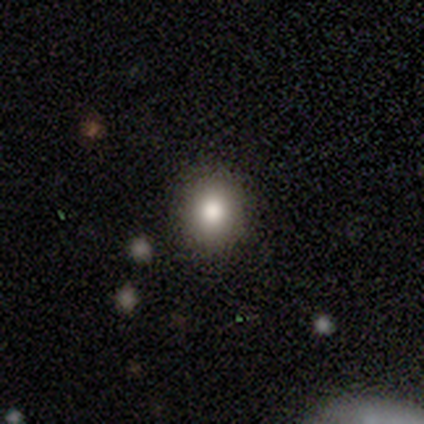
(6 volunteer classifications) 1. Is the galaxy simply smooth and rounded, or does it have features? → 83% smooth, 17% star or artifact, 0% featured or disk.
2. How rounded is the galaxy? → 100% round, 0% in between, 0% cigar-shaped.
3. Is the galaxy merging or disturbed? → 100% none, 0% minor disturbance, 0% major disturbance, 0% merger.